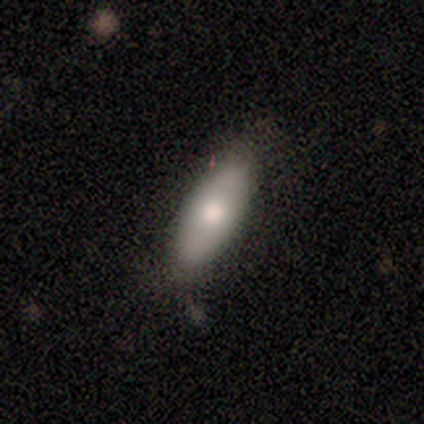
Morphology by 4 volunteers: Q: Smooth or featured?
A: smooth (75%); runner-up: featured or disk (25%)
Q: How rounded?
A: in between (100%)
Q: Merging?
A: none (100%)